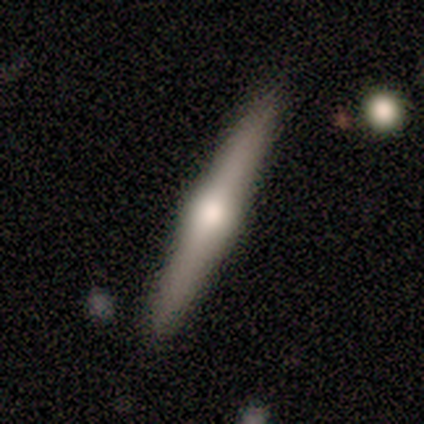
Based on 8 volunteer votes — Overall: featured or disk (50%; smooth 25%). Edge-on disk: yes (100%). Edge-on bulge: rounded (75%). Merging: none (100%).